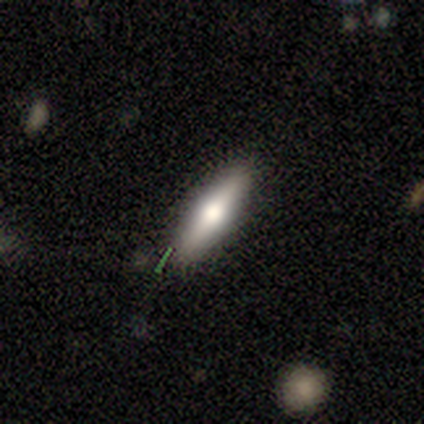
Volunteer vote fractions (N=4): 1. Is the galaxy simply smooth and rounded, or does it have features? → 75% smooth, 25% featured or disk, 0% star or artifact.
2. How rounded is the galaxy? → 67% cigar-shaped, 33% in between, 0% round.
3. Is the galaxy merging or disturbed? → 75% none, 25% minor disturbance, 0% major disturbance, 0% merger.